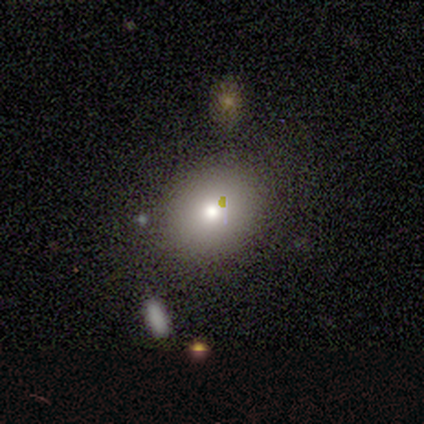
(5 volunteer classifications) Smooth or featured? 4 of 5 (80%) said smooth. How rounded? 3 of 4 (75%) said round. Merging? 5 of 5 (100%) said none.